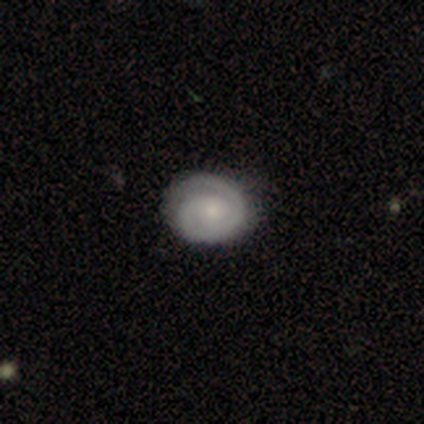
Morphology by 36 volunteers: A featured or disk galaxy (72%) with no bar (92%), 1 (46%) tight (73%) spiral arms (100%) and a small central bulge (73%). Merging: none (85%).